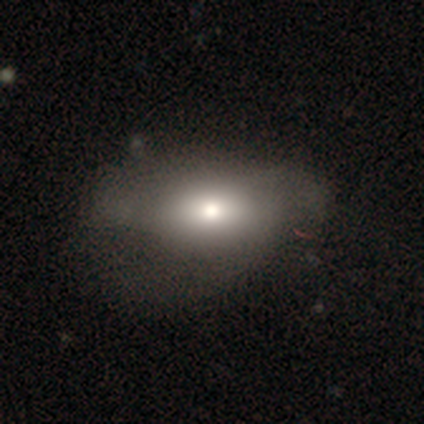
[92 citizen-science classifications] smooth 66%, featured or disk 21%, star or artifact 13%. Down the decision tree: how rounded — in between (87%); merging — none (48%).